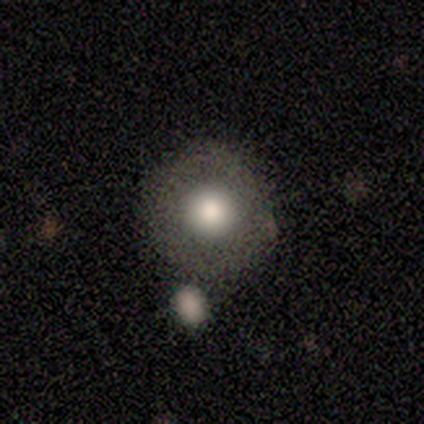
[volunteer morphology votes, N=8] This is likely a smooth galaxy (75%). How rounded: clearly round (100%). Merging: likely none (71%).